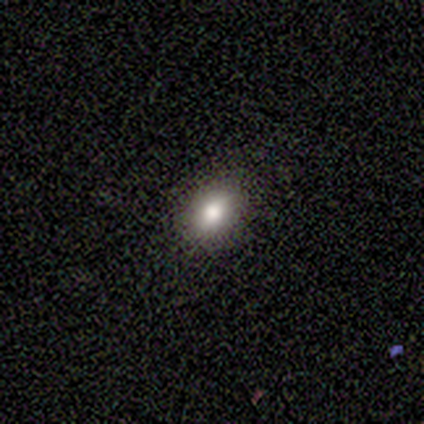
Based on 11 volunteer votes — Q: Smooth or featured?
A: smooth (91%); runner-up: featured or disk (9%)
Q: How rounded?
A: in between (80%); runner-up: round (20%)
Q: Merging?
A: none (91%); runner-up: major disturbance (9%)